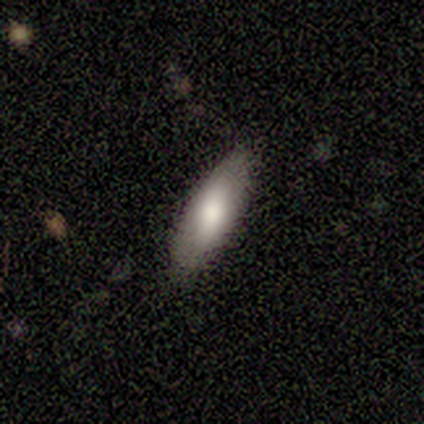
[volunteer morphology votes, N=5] A smooth galaxy with no disk features (80%) that is in between round and cigar-shaped (75%). Merging: none (100%).